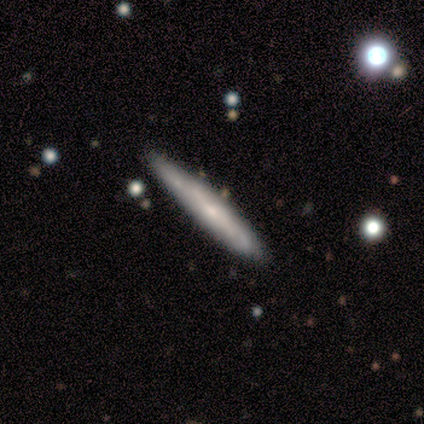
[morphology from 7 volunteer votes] Smooth or featured: featured or disk — 86% (smooth — 14%)
Edge-on disk: yes — 83% (no — 17%)
Edge-on bulge: none — 80% (rounded — 20%)
Merging: none — 86% (minor disturbance — 14%)